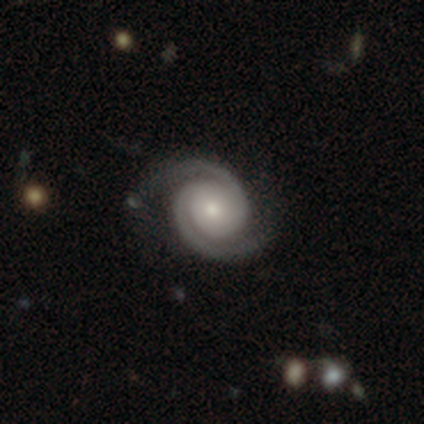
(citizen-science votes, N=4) Morphology: type=featured or disk (100%); edge-on=no (100%); bar=no (100%); spiral arms=yes (100%); winding=tight (100%); arm count=2 (100%); bulge=moderate (50%, tied with small); merging=none (75%).